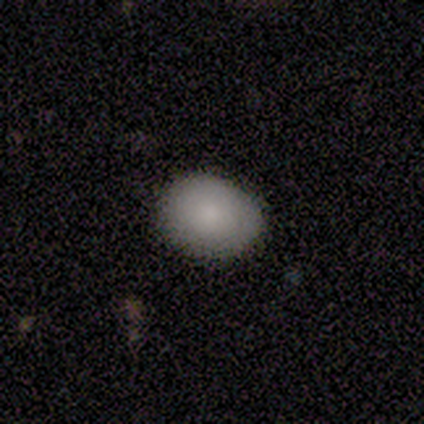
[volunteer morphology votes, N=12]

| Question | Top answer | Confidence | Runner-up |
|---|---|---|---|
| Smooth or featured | smooth | 83% | star or artifact (17%) |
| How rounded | round | 50% | tied: in between (50%) |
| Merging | none | 80% | minor disturbance (20%) |